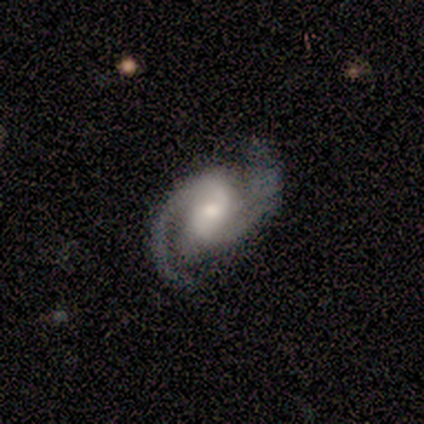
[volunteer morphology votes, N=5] Smooth or featured?
  - featured or disk: 100% *
  - smooth: 0%
  - star or artifact: 0%
Edge-on disk?
  - no: 100% *
  - yes: 0%
Bar?
  - no: 60% *
  - weak: 40%
  - strong: 0%
Spiral arms?
  - yes: 100% *
  - no: 0%
Spiral winding?
  - medium: 60% *
  - tight: 40%
  - loose: 0%
Spiral arm count?
  - 2: 100% *
  - 1: 0%
  - 3: 0%
  - 4: 0%
  - more than 4: 0%
  - can't tell: 0%
Bulge size?
  - moderate: 60% *
  - small: 20%
  - none: 20%
  - dominant: 0%
  - large: 0%
Merging?
  - none: 80% *
  - minor disturbance: 20%
  - major disturbance: 0%
  - merger: 0%